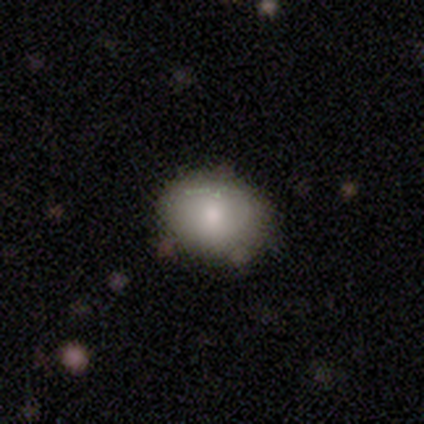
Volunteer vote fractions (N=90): smooth 83%, featured or disk 9%, star or artifact 8%. Down the decision tree: how rounded — in between (51%); merging — none (81%).